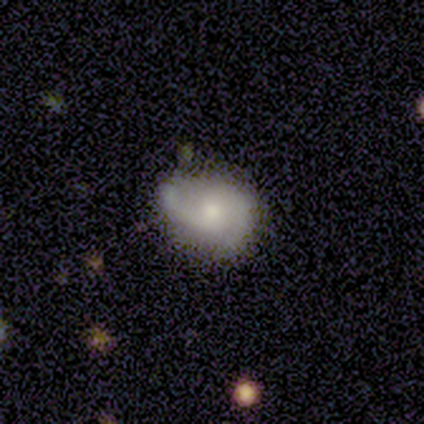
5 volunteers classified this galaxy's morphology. Smooth or featured: featured or disk — 60% (smooth — 20%)
Edge-on disk: no — 100%
Bar: no — 67% (weak — 33%)
Spiral arms: yes — 100%
Spiral winding: loose — 67% (tight — 33%)
Spiral arm count: 1 — 67% (2 — 33%)
Bulge size: large — 33% (tied with moderate — 33%; small — 33%)
Merging: none — 50% (minor disturbance — 25%)